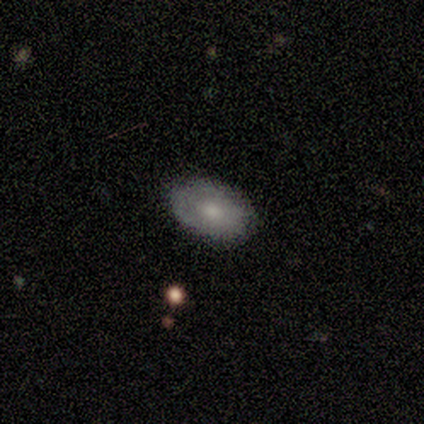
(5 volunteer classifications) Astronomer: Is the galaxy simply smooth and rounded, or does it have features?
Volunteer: smooth — 60% (runner-up: featured or disk, 40%).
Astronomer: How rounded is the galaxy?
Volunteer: in between — 100%.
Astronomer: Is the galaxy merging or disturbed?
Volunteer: none — 60% (runner-up: minor disturbance, 40%).